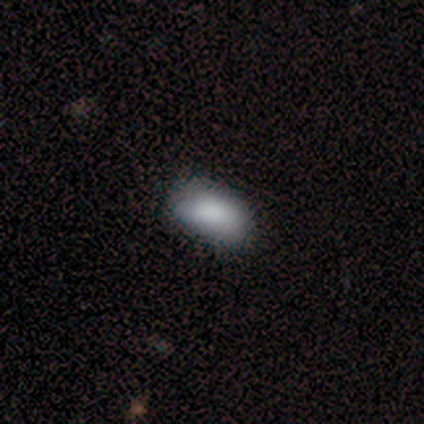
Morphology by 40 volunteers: Overall: smooth (95%). How rounded: in between (95%). Merging: none (72%).